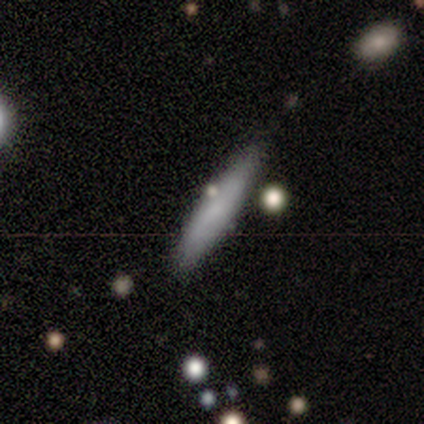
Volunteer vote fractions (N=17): Morphology: type=smooth (82%); roundness=cigar-shaped (100%); merging=none (88%).